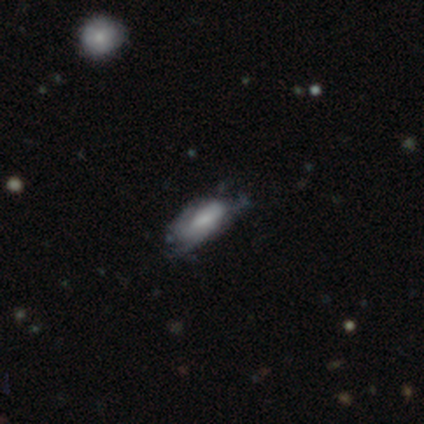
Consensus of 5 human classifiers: Smooth or featured: smooth — 60% (star or artifact — 40%)
How rounded: in between — 100%
Merging: none — 67% (minor disturbance — 33%)